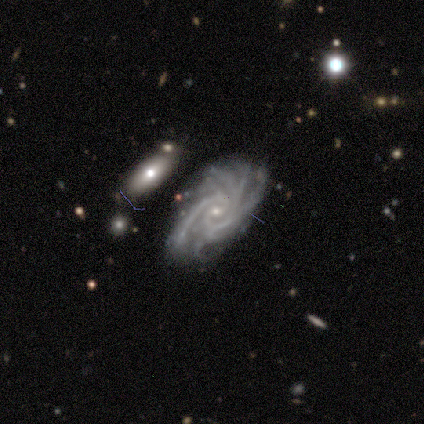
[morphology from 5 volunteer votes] Smooth or featured?
  - featured or disk: 80% *
  - star or artifact: 20%
  - smooth: 0%
Edge-on disk?
  - no: 100% *
  - yes: 0%
Bar?
  - no: 75% *
  - weak: 25%
  - strong: 0%
Spiral arms?
  - yes: 100% *
  - no: 0%
Spiral winding?
  - tight: 75% *
  - loose: 25%
  - medium: 0%
Spiral arm count?
  - 2: 75% *
  - 4: 25%
  - 1: 0%
  - 3: 0%
  - more than 4: 0%
  - can't tell: 0%
Bulge size?
  - small: 100% *
  - dominant: 0%
  - large: 0%
  - moderate: 0%
  - none: 0%
Merging?
  - major disturbance: 50% *
  - none: 25%
  - minor disturbance: 25%
  - merger: 0%